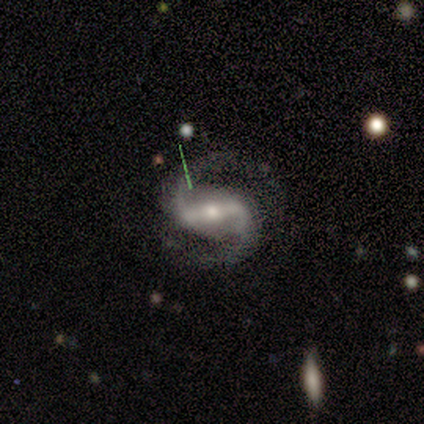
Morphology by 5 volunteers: Smooth or featured: featured or disk — 100%
Edge-on disk: no — 100%
Bar: weak — 80% (strong — 20%)
Spiral arms: yes — 100%
Spiral winding: medium — 60% (loose — 40%)
Spiral arm count: 2 — 100%
Bulge size: small — 60% (moderate — 40%)
Merging: none — 100%